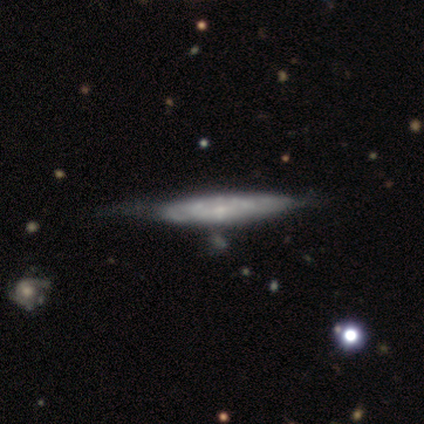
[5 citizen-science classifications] smooth-or-featured: featured or disk: 80% | smooth: 20% | star or artifact: 0%
  disk-edge-on: no: 100% | yes: 0%
    bar: no: 75% | weak: 25% | strong: 0%
    has-spiral-arms: no: 75% | yes: 25%
    bulge-size: small: 100% | dominant: 0% | large: 0% | moderate: 0% | none: 0%
  merging: none: 60% | minor disturbance: 20% | major disturbance: 20% | merger: 0%